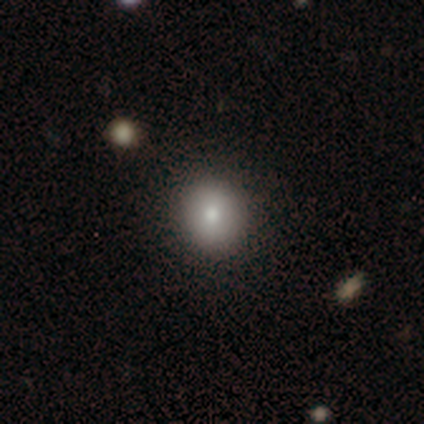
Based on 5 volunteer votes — A smooth galaxy with no disk features (100%) that is round (100%). Merging: none (100%).